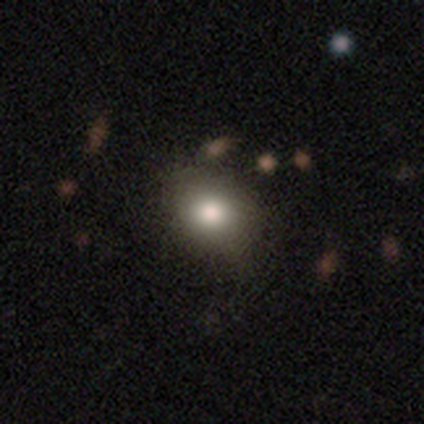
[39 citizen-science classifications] Smooth or featured? smooth (85%)
How rounded? in between (52%)
Merging? none (47%)